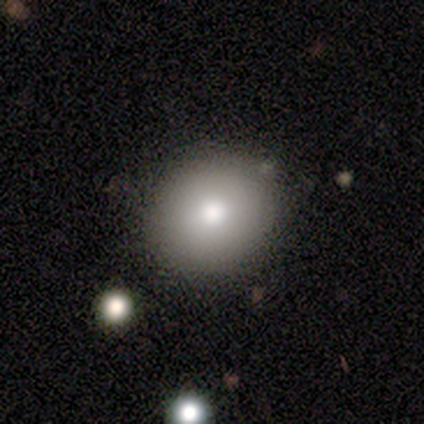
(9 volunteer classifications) Morphology: type=smooth (89%); roundness=round (62%); merging=none (89%).